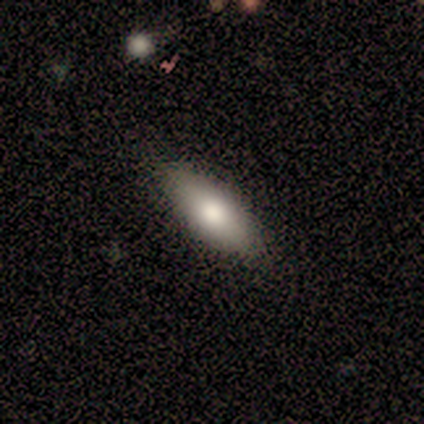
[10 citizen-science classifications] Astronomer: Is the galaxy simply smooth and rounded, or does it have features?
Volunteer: smooth — 60%.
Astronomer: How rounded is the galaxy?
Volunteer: in between — 83%.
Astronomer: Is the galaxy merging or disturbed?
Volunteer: none — 78%.